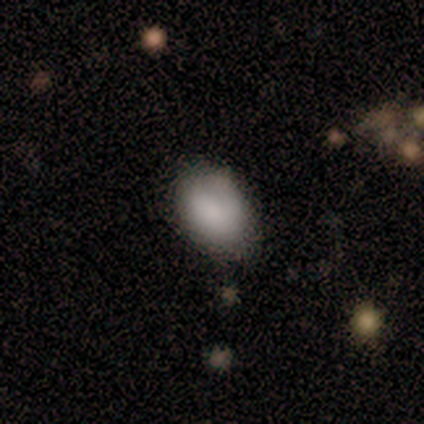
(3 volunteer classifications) A smooth galaxy with no disk features (67%) that is in between round and cigar-shaped (100%). Merging: none (67%).